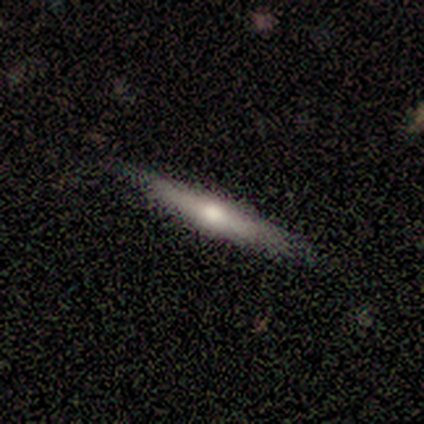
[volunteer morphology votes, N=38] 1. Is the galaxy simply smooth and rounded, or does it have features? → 63% featured or disk, 32% smooth, 5% star or artifact.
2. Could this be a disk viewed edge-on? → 92% yes, 8% no.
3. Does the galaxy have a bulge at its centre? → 82% rounded, 9% boxy, 9% none.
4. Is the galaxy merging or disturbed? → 81% none, 14% minor disturbance, 6% major disturbance, 0% merger.